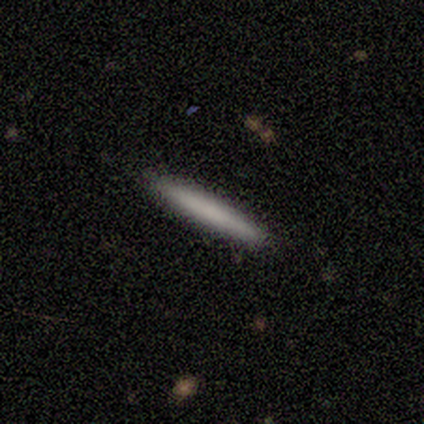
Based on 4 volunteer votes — Q: Smooth or featured?
A: smooth (100%)
Q: How rounded?
A: cigar-shaped (100%)
Q: Merging?
A: none (100%)